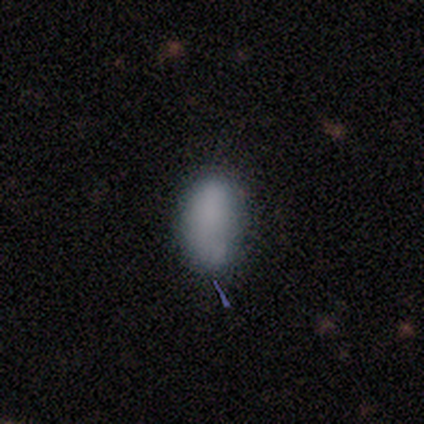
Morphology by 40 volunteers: This is clearly a smooth galaxy (82%). How rounded: clearly in between (91%). Merging: likely none (74%).